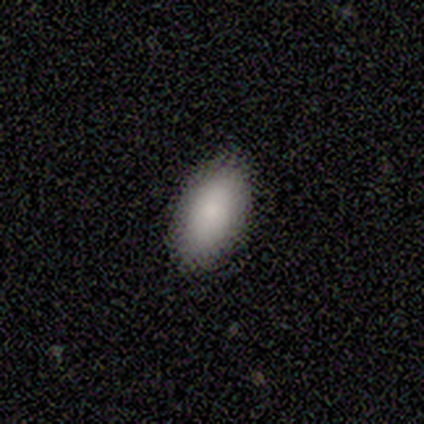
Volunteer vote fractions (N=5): This is clearly a smooth galaxy (80%). How rounded: clearly in between (100%). Merging: clearly none (100%).